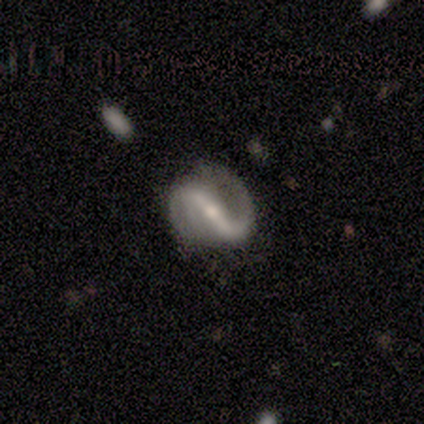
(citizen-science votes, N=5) Overall: featured or disk (100%). Edge-on disk: no (100%). Bar: strong (60%; weak 20%). Spiral arms: yes (80%). Spiral arm count: 2 (100%). Spiral winding: medium (50%; tight 25%). Bulge size: small (80%). Merging: none (80%).